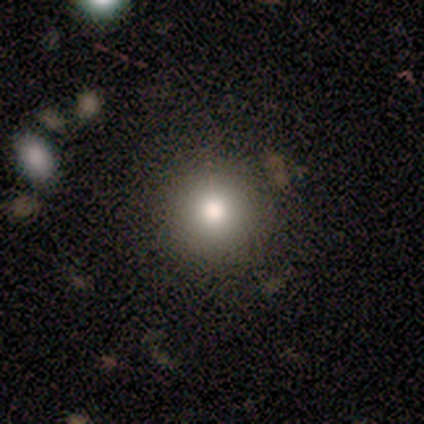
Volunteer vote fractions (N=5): Q: Smooth or featured?
A: smooth (80%); runner-up: featured or disk (20%)
Q: How rounded?
A: round (100%)
Q: Merging?
A: none (100%)